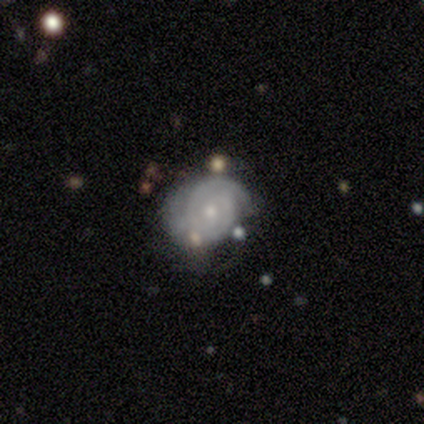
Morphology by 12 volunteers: Volunteers were most divided on "merging": none: 40%, minor disturbance: 30%, major disturbance: 30%, merger: 0%. More confident: edge-on disk — no (100%); spiral arms — yes (100%); bar — no (89%); smooth or featured — featured or disk (75%); spiral winding — tight (67%); bulge size — small (67%); spiral arm count — 2 (56%).